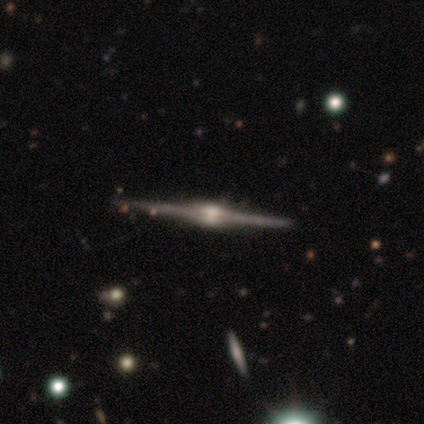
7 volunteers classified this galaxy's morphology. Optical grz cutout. It shows a featured or disk galaxy (100%) viewed edge-on (100%) with a rounded central bulge (100%). Merging: none (100%).